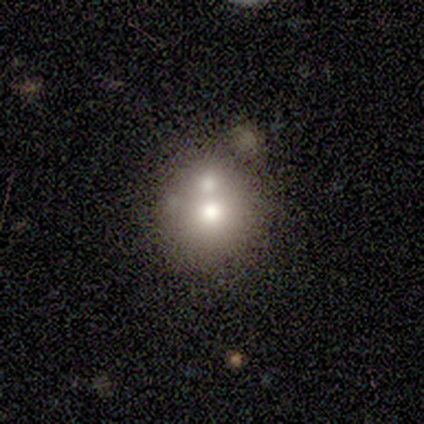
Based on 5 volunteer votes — This appears to be a smooth galaxy with no disk features (40%, tied with featured or disk) that is round (100%). Merging: merger (100%).